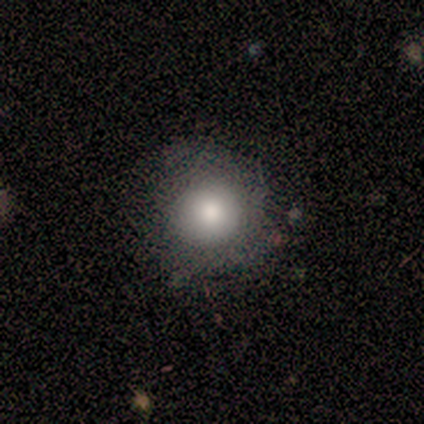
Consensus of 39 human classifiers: Morphology: type=smooth (87%); roundness=round (94%); merging=none (55%).